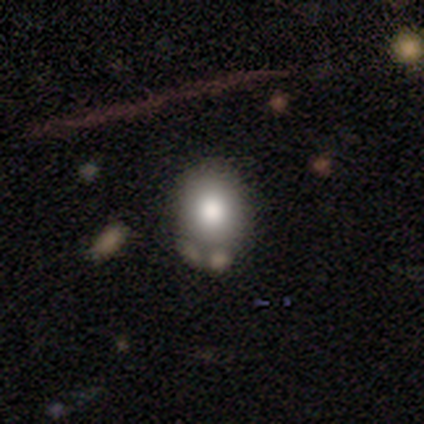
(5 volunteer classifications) This is likely a featured or disk galaxy (60%). It is clearly not viewed edge-on (100%). Bar: likely no (67%). Spiral arm pattern: likely no (67%). Central bulge: likely moderate (67%). Merging: likely none (60%).